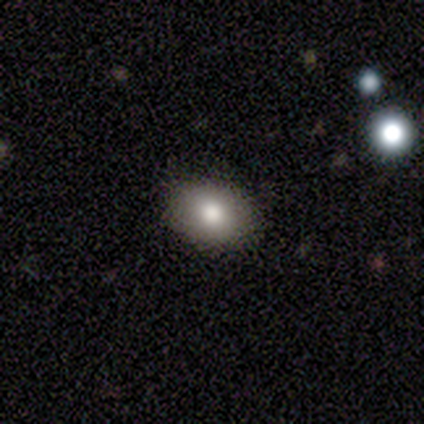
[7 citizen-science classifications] A smooth galaxy with no disk features (100%) that is in between round and cigar-shaped (86%).

Vote fractions:
- Smooth or featured? smooth: 100% / featured or disk: 0% / star or artifact: 0%
- How rounded? in between: 86% / round: 14% / cigar-shaped: 0%
- Merging? none: 100% / minor disturbance: 0% / major disturbance: 0% / merger: 0%